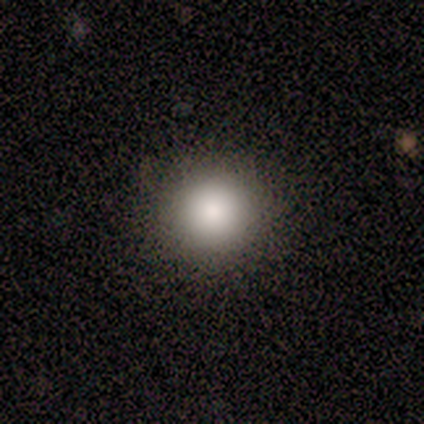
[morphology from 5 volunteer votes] smooth 80%, star or artifact 20%, featured or disk 0%. Down the decision tree: how rounded — round (100%); merging — none (100%).